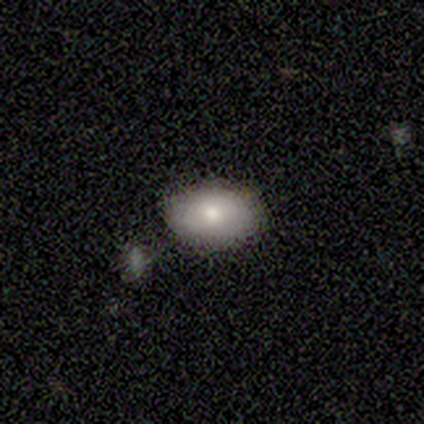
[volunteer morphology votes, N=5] type=smooth (60%); roundness=in between (67%); merging=none (75%).